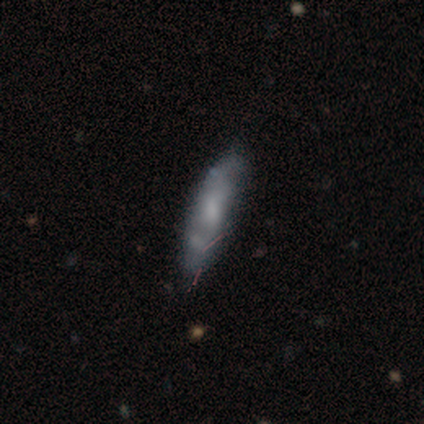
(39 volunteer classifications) A smooth galaxy with no disk features (51%) that is cigar-shaped (90%). Merging: none (46%).